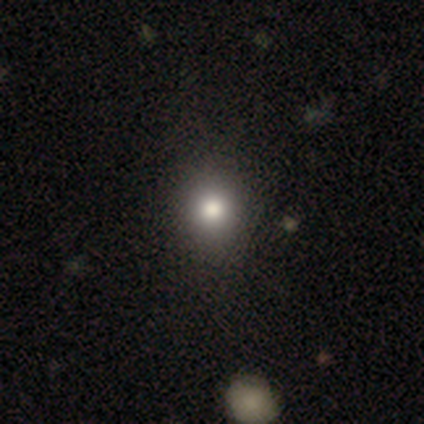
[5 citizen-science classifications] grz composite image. It shows a smooth galaxy with no disk features (80%) that is round (100%). Merging: none (100%).